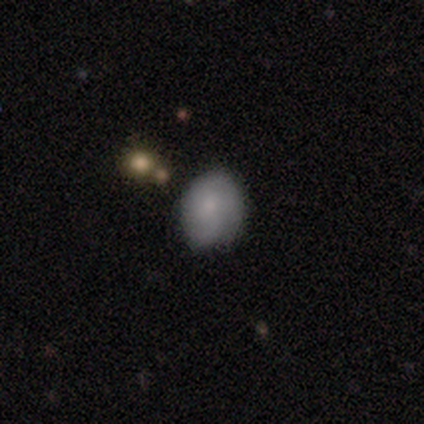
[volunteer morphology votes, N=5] smooth_or_featured: smooth (p=0.60) [alt: featured or disk p=0.40]
how_rounded: in between (p=0.67) [alt: round p=0.33]
merging: none (p=0.80) [alt: minor disturbance p=0.20]